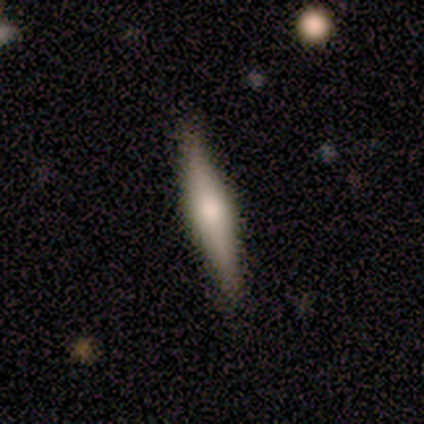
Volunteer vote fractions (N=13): Volunteers were most divided on "smooth or featured": featured or disk: 69%, smooth: 31%, star or artifact: 0%. More confident: edge-on disk — yes (100%); edge-on bulge — rounded (100%); merging — none (92%).